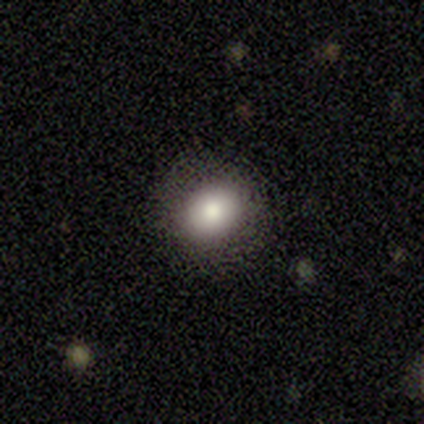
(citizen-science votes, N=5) This appears to be a smooth galaxy with no disk features (100%) that is in between round and cigar-shaped (60%). Merging: none (100%).